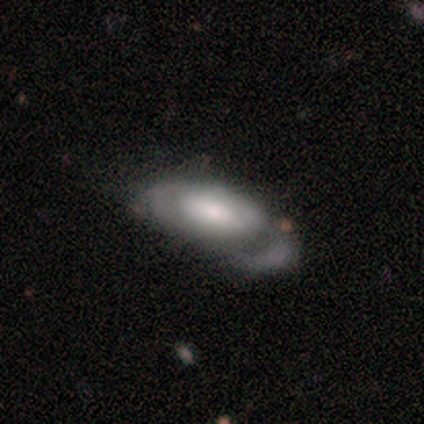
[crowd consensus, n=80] A smooth galaxy with no disk features (49%) that is in between round and cigar-shaped (97%).

Vote fractions:
- Smooth or featured? smooth: 49% / featured or disk: 46% / star or artifact: 5%
- How rounded? in between: 97% / cigar-shaped: 3% / round: 0%
- Merging? major disturbance: 38% / none: 36% / minor disturbance: 22% / merger: 4%